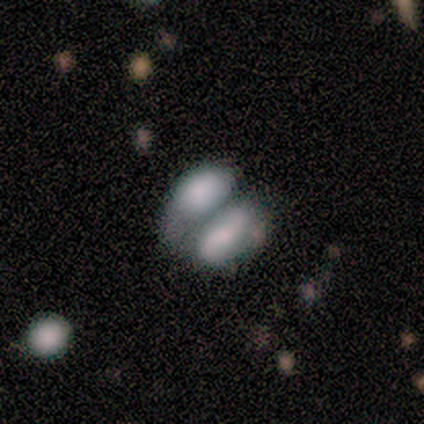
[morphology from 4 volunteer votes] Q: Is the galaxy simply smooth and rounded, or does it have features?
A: smooth — 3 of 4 (75%).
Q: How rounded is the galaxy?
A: in between — 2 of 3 (67%).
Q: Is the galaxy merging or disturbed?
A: merger — 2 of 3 (67%).